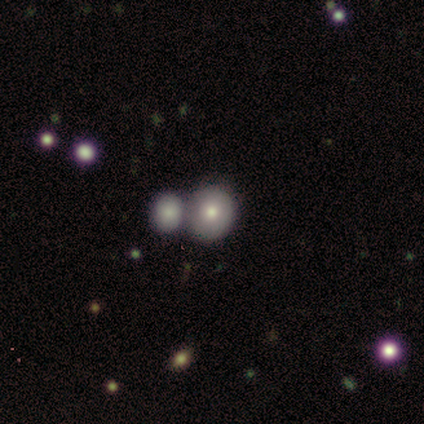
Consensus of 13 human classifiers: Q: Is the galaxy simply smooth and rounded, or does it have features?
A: smooth — 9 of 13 (69%).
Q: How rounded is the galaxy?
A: round — 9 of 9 (100%).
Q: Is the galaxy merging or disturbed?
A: merger — 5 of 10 (50%).